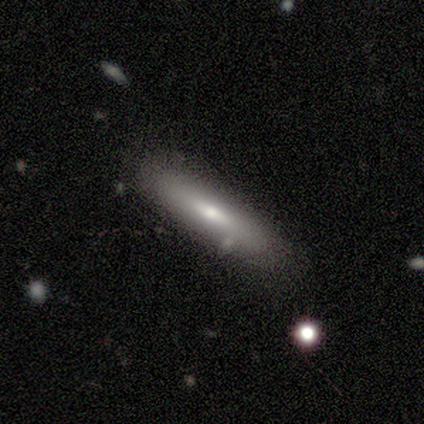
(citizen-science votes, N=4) This is clearly a smooth galaxy (100%). How rounded: likely cigar-shaped (75%). Merging: clearly none (100%).